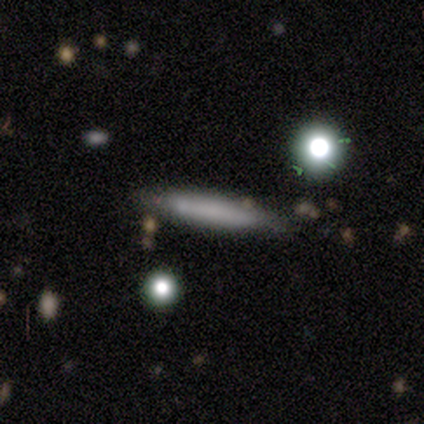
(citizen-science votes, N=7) Smooth or featured? 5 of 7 (71%) said smooth. How rounded? 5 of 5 (100%) said cigar-shaped. Merging? 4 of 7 (57%) said none.